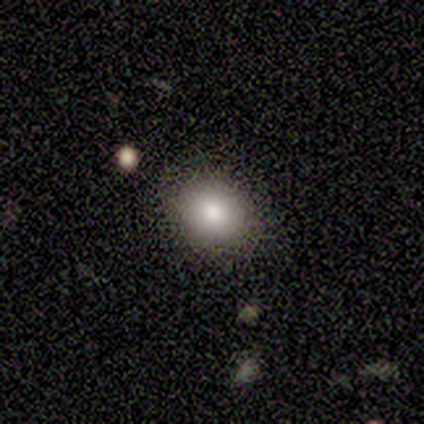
A smooth galaxy with no disk features (100%) that is round (60%).

Vote fractions:
- Smooth or featured? smooth: 100% / featured or disk: 0% / star or artifact: 0%
- How rounded? round: 60% / in between: 40% / cigar-shaped: 0%
- Merging? none: 100% / minor disturbance: 0% / major disturbance: 0% / merger: 0%